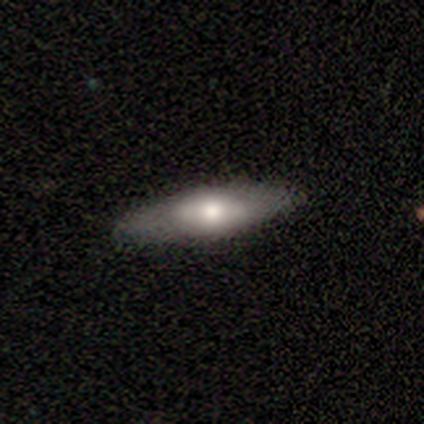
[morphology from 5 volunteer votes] Volunteers were most divided on "bar" (2-way tie): weak: 50%, no: 50%, strong: 0%; "spiral arms" (2-way tie): yes: 50%, no: 50%; "bulge size" (2-way tie): large: 50%, moderate: 50%, dominant: 0%, small: 0%, none: 0%. More confident: spiral winding — loose (100%); spiral arm count — can't tell (100%); merging — none (100%); edge-on disk — no (67%); smooth or featured — featured or disk (60%).